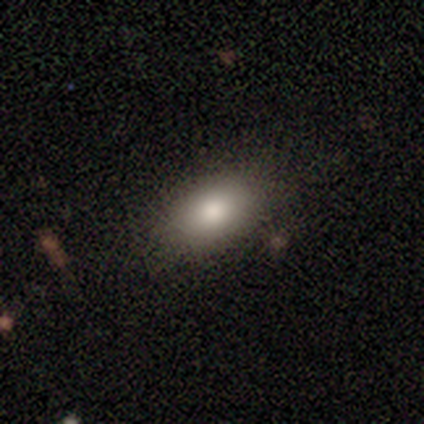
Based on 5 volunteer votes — Smooth or featured?
  - smooth: 100% *
  - featured or disk: 0%
  - star or artifact: 0%
How rounded?
  - in between: 100% *
  - round: 0%
  - cigar-shaped: 0%
Merging?
  - none: 100% *
  - minor disturbance: 0%
  - major disturbance: 0%
  - merger: 0%